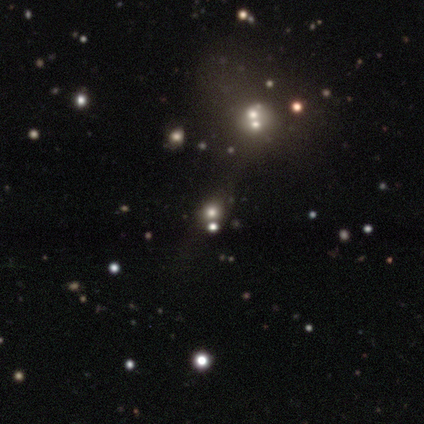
Smooth or featured?
  - smooth: 60% *
  - featured or disk: 20%
  - star or artifact: 20%
How rounded?
  - round: 33% * (tied)
  - in between: 33% * (tied)
  - cigar-shaped: 33% * (tied)
Merging?
  - none: 50% * (tied)
  - merger: 50% * (tied)
  - minor disturbance: 0%
  - major disturbance: 0%